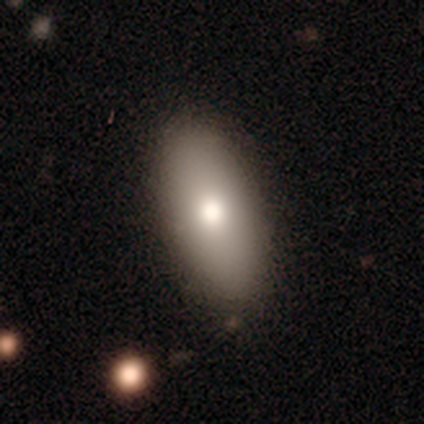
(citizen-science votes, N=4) Morphology: type=smooth (50%); roundness=in between (100%); merging=none (100%).